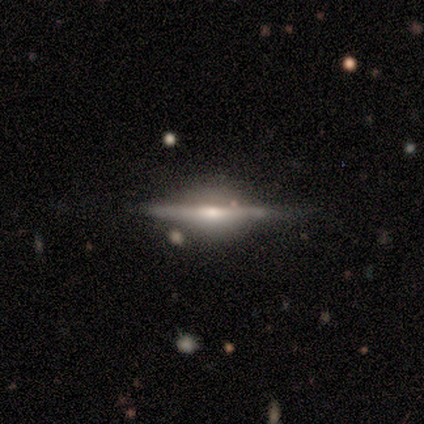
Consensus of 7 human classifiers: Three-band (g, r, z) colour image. It shows a featured or disk galaxy (100%) viewed edge-on (100%) with a rounded central bulge (71%). Merging: none (86%).